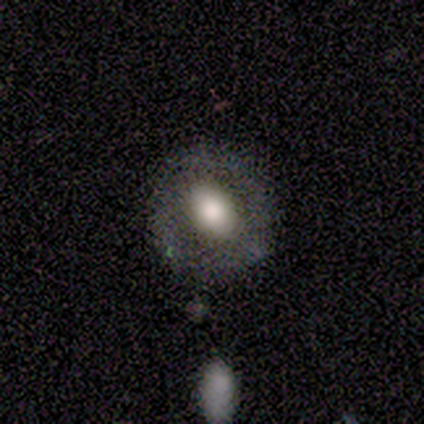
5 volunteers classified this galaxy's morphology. Q: Smooth or featured?
A: featured or disk (80%); runner-up: smooth (20%)
Q: Edge-on disk?
A: no (100%)
Q: Bar?
A: no (75%); runner-up: strong (25%)
Q: Spiral arms?
A: no (100%)
Q: Bulge size?
A: moderate (100%)
Q: Merging?
A: none (100%)